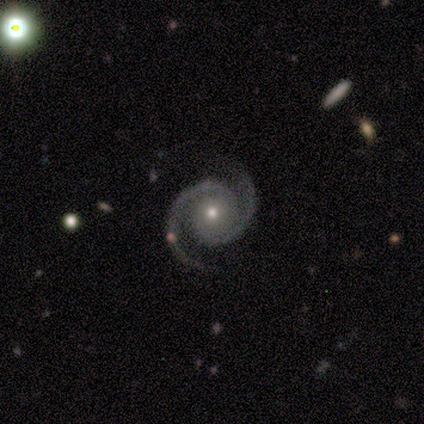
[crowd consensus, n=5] Q: Smooth or featured?
A: featured or disk (100%)
Q: Edge-on disk?
A: no (100%)
Q: Bar?
A: no (80%); runner-up: weak (20%)
Q: Spiral arms?
A: yes (100%)
Q: Spiral winding?
A: tight (80%); runner-up: medium (20%)
Q: Spiral arm count?
A: 2 (100%)
Q: Bulge size?
A: small (60%); runner-up: moderate (40%)
Q: Merging?
A: none (100%)